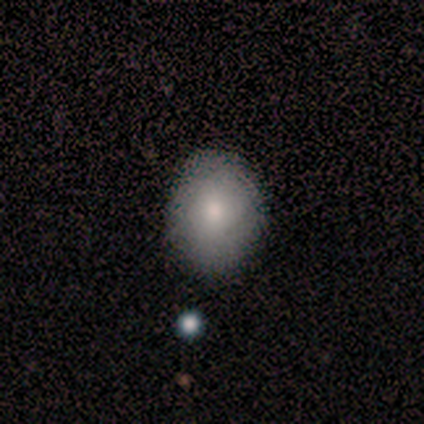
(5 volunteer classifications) smooth-or-featured: smooth: 60% | featured or disk: 40% | star or artifact: 0%
  how-rounded: in between: 100% | round: 0% | cigar-shaped: 0%
  merging: none: 60% | minor disturbance: 20% | major disturbance: 20% | merger: 0%